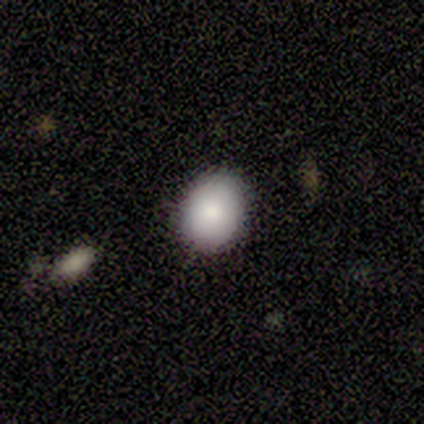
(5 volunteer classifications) Smooth or featured? 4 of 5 (80%) said smooth. How rounded? 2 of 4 (50%, tied with in between) said round. Merging? 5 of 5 (100%) said none.